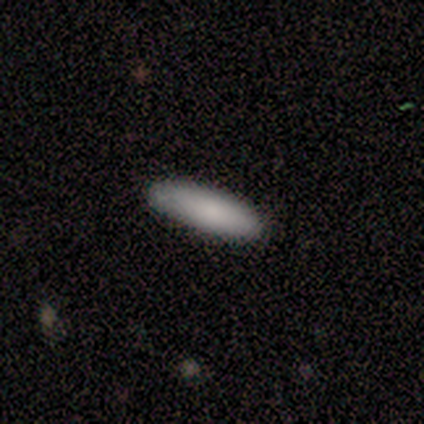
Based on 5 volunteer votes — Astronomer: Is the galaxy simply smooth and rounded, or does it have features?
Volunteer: smooth — 80%.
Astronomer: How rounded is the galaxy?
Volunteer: in between — 75%.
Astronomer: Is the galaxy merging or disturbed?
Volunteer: none — 80%.